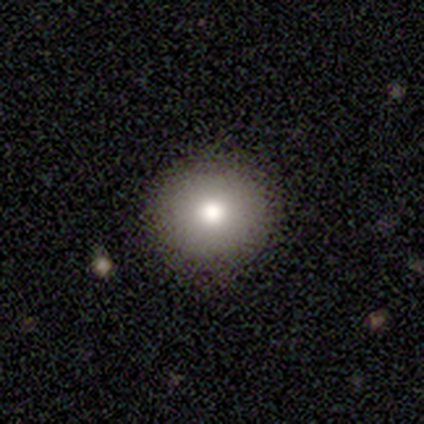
smooth_or_featured: smooth (p=1.00)
how_rounded: round (p=1.00)
merging: none (p=1.00)